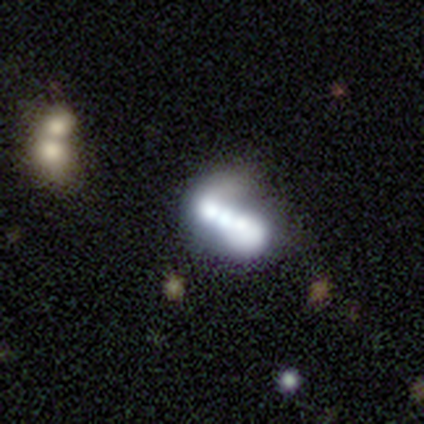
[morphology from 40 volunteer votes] Volunteers were most divided on "bulge size": moderate: 33%, large: 24%, none: 24%, dominant: 14%, small: 5%. More confident: edge-on disk — no (95%); spiral arms — no (76%); bar — no (62%); merging — merger (57%); smooth or featured — featured or disk (55%).